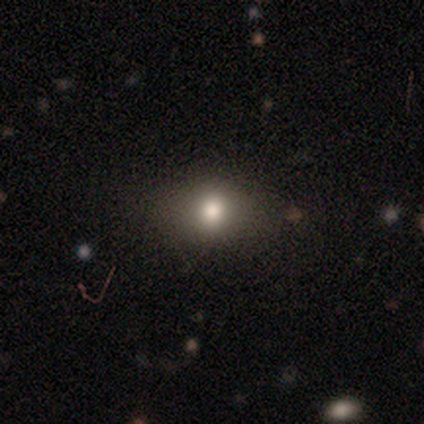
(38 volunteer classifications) Smooth or featured?
  - smooth: 76% *
  - star or artifact: 18%
  - featured or disk: 5%
How rounded?
  - round: 52% *
  - in between: 45%
  - cigar-shaped: 3%
Merging?
  - none: 77% *
  - minor disturbance: 23%
  - major disturbance: 0%
  - merger: 0%